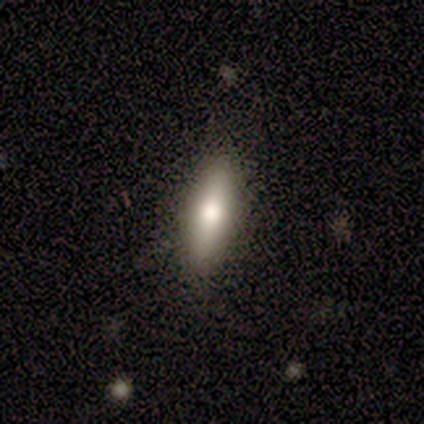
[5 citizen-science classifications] This is likely a smooth galaxy (60%). How rounded: clearly in between (100%). Merging: clearly none (100%).